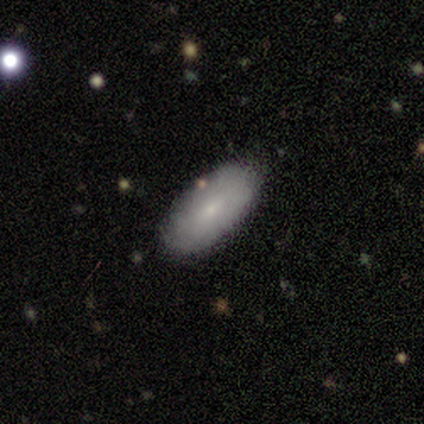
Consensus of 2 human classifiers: Morphology: type=smooth (100%); roundness=in between (100%); merging=none (100%).